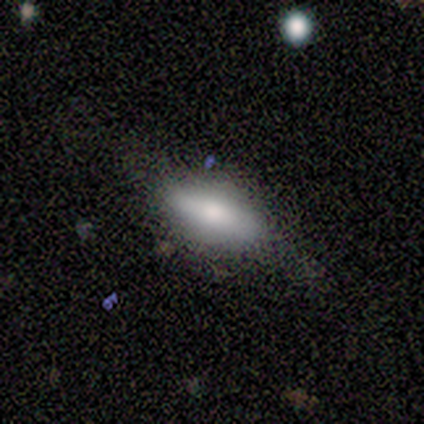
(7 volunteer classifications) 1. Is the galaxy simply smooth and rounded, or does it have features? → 57% featured or disk, 43% smooth, 0% star or artifact.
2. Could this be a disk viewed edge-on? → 100% yes, 0% no.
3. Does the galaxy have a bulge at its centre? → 100% rounded, 0% boxy, 0% none.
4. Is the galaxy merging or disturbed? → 71% none, 29% minor disturbance, 0% major disturbance, 0% merger.